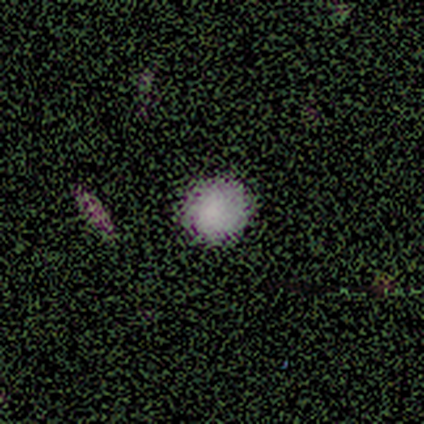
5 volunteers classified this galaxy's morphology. Smooth or featured?
  - smooth: 80% *
  - star or artifact: 20%
  - featured or disk: 0%
How rounded?
  - round: 100% *
  - in between: 0%
  - cigar-shaped: 0%
Merging?
  - none: 75% *
  - minor disturbance: 25%
  - major disturbance: 0%
  - merger: 0%